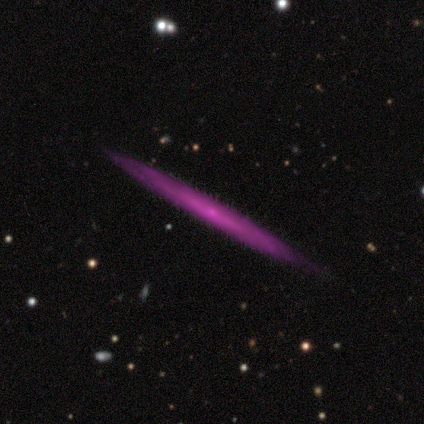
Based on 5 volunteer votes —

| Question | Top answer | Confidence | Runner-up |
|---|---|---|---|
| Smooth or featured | featured or disk | 80% | star or artifact (20%) |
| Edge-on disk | yes | 100% | — |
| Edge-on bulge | none | 50% | tied: rounded (50%) |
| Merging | none | 100% | — |